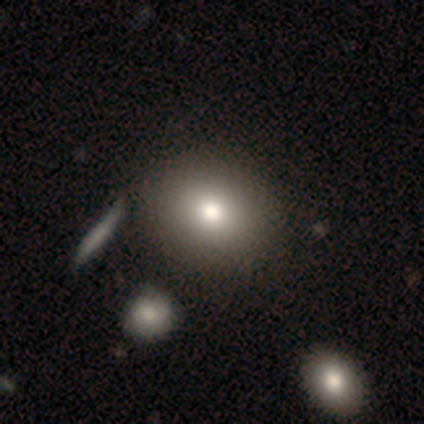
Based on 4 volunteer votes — smooth-or-featured: smooth: 75% | featured or disk: 25% | star or artifact: 0%
  how-rounded: round: 100% | in between: 0% | cigar-shaped: 0%
  merging: none: 50% | minor disturbance: 25% | merger: 25% | major disturbance: 0%